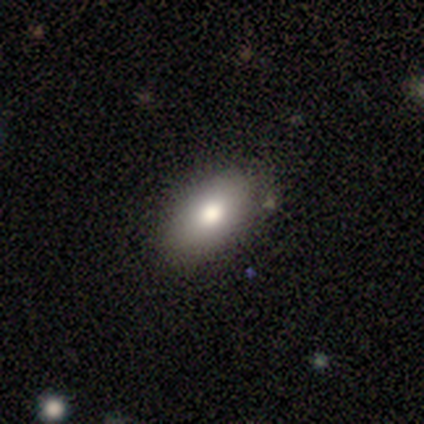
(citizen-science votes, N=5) This appears to be a smooth galaxy with no disk features (60%) that is in between round and cigar-shaped (67%). Merging: none (100%).